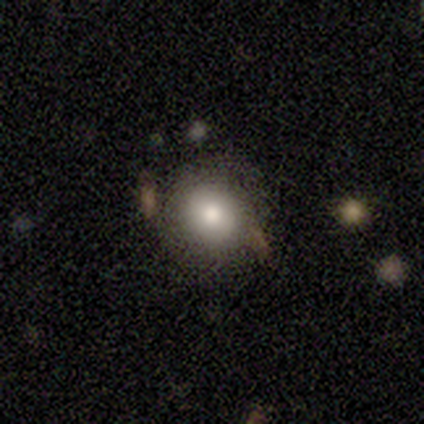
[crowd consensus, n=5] This appears to be a smooth galaxy with no disk features (80%) that is round (100%). Merging: none (75%).